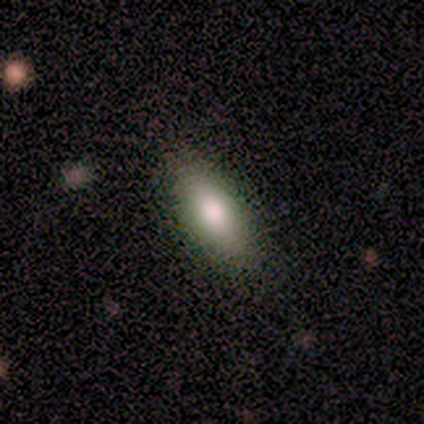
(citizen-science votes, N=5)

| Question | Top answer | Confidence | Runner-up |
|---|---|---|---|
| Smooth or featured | smooth | 100% | — |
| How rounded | in between | 80% | cigar-shaped (20%) |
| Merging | none | 100% | — |